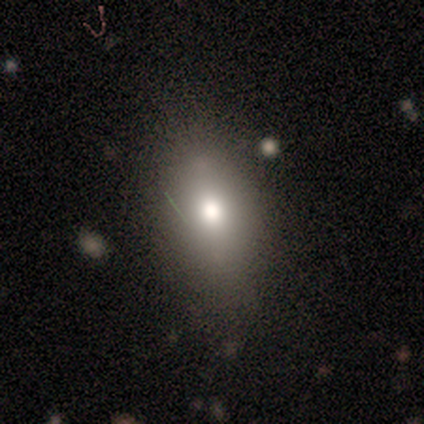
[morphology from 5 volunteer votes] Volunteers were most divided on "merging": none: 75%, major disturbance: 25%, minor disturbance: 0%, merger: 0%. More confident: how rounded — in between (100%); smooth or featured — smooth (80%).